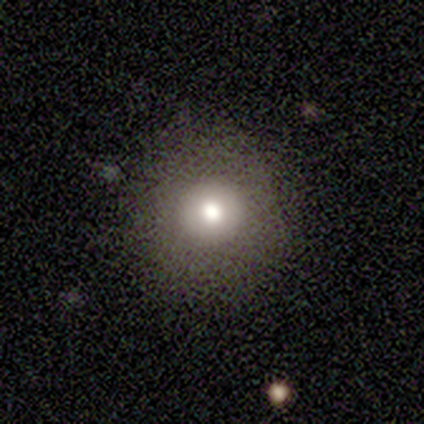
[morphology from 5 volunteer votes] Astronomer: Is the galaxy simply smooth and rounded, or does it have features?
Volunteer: smooth — 80%.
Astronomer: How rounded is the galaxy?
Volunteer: round — 100%.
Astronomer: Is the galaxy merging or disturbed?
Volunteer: none — 100%.